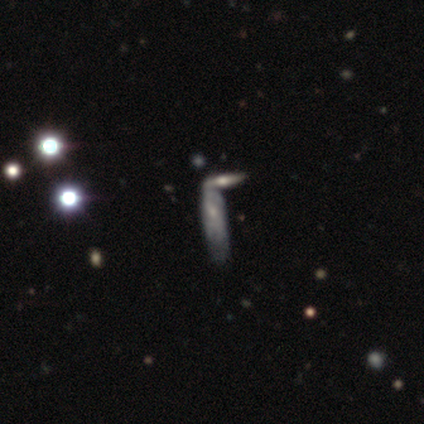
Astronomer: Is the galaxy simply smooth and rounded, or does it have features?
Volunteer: featured or disk — 65%.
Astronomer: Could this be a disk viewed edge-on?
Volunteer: no — 55% (runner-up: yes, 45%).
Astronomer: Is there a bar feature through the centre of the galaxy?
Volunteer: no — 83%.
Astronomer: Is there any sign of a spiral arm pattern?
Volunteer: no — 67%.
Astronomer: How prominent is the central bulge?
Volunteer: small — 83%.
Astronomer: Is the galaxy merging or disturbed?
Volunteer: merger — 47% (runner-up: minor disturbance, 27%).